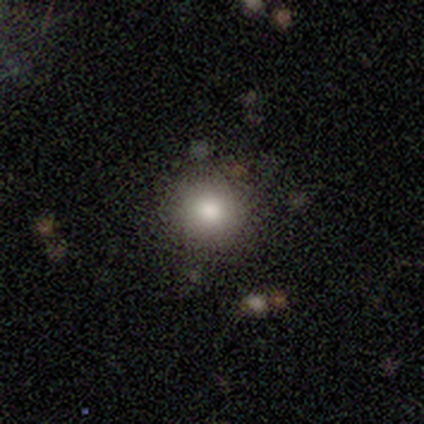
Q: Smooth or featured?
A: smooth (80%); runner-up: featured or disk (20%)
Q: How rounded?
A: round (100%)
Q: Merging?
A: none (100%)